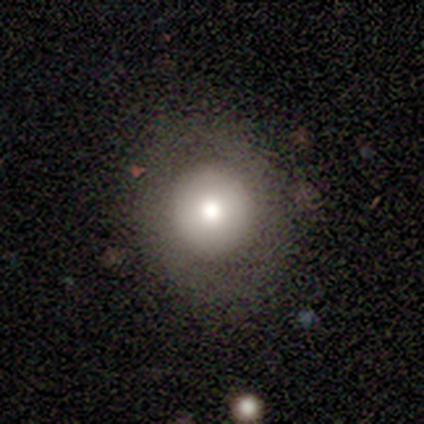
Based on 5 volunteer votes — smooth-or-featured: smooth: 60% | featured or disk: 40% | star or artifact: 0%
  how-rounded: round: 100% | in between: 0% | cigar-shaped: 0%
  merging: none: 60% | minor disturbance: 40% | major disturbance: 0% | merger: 0%